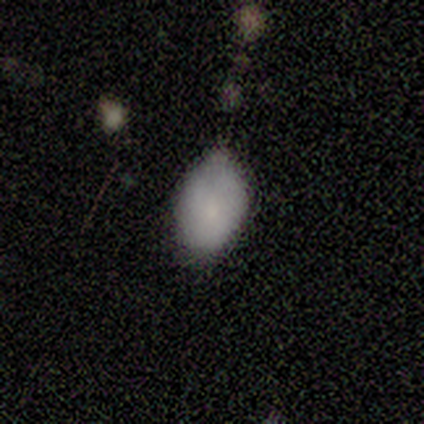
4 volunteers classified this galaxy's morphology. Smooth or featured? smooth (75%)
How rounded? in between (100%)
Merging? minor disturbance (50%)